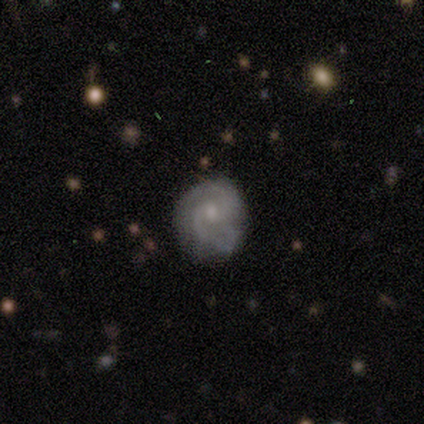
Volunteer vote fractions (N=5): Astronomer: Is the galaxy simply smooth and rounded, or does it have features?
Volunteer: smooth — 60% (runner-up: featured or disk, 40%).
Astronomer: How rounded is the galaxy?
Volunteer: round — 67%.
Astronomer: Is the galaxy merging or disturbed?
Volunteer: none — 40% (runner-up: minor disturbance, 20%).